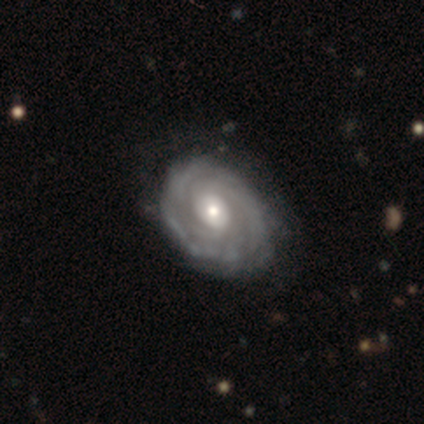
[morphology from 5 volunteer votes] A featured or disk galaxy (80%) with no bar (75%), 3 (33%, tied with more than 4 and can't tell) tight (67%) spiral arms (75%) and a moderate central bulge (50%).

Vote fractions:
- Smooth or featured? featured or disk: 80% / star or artifact: 20% / smooth: 0%
- Edge-on disk? no: 100% / yes: 0%
- Bar? no: 75% / weak: 25% / strong: 0%
- Spiral arms? yes: 75% / no: 25%
- Spiral winding? tight: 67% / medium: 33% / loose: 0%
- Spiral arm count? 3: 33% (tied) / more than 4: 33% (tied) / can't tell: 33% (tied) / 1: 0% / 2: 0% / 4: 0%
- Bulge size? moderate: 50% / small: 25% / none: 25% / dominant: 0% / large: 0%
- Merging? none: 75% / minor disturbance: 25% / major disturbance: 0% / merger: 0%